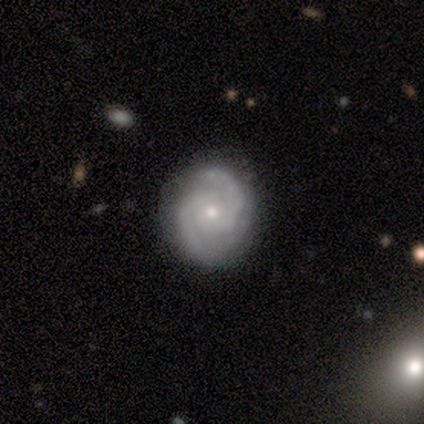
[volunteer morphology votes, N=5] Smooth or featured?
  - featured or disk: 100% *
  - smooth: 0%
  - star or artifact: 0%
Edge-on disk?
  - no: 100% *
  - yes: 0%
Bar?
  - no: 100% *
  - strong: 0%
  - weak: 0%
Spiral arms?
  - yes: 100% *
  - no: 0%
Spiral winding?
  - medium: 60% *
  - tight: 40%
  - loose: 0%
Spiral arm count?
  - 2: 80% *
  - can't tell: 20%
  - 1: 0%
  - 3: 0%
  - 4: 0%
  - more than 4: 0%
Bulge size?
  - small: 80% *
  - none: 20%
  - dominant: 0%
  - large: 0%
  - moderate: 0%
Merging?
  - none: 100% *
  - minor disturbance: 0%
  - major disturbance: 0%
  - merger: 0%